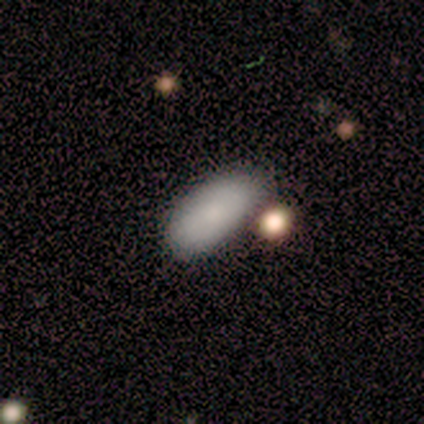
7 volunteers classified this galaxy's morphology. This is clearly a smooth galaxy (86%). How rounded: clearly in between (100%). Merging: likely none (71%).